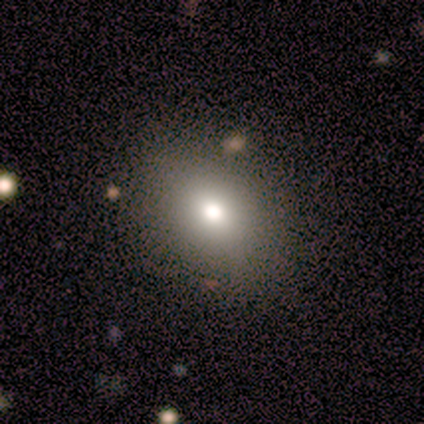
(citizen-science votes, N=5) Smooth or featured?
  - smooth: 80% *
  - featured or disk: 20%
  - star or artifact: 0%
How rounded?
  - in between: 75% *
  - round: 25%
  - cigar-shaped: 0%
Merging?
  - none: 100% *
  - minor disturbance: 0%
  - major disturbance: 0%
  - merger: 0%